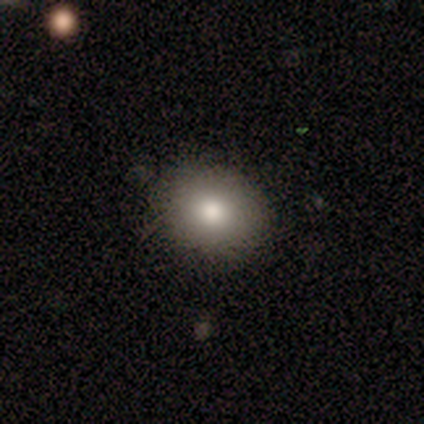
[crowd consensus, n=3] Volunteers were most divided on "smooth or featured": star or artifact: 67%, smooth: 33%, featured or disk: 0%.